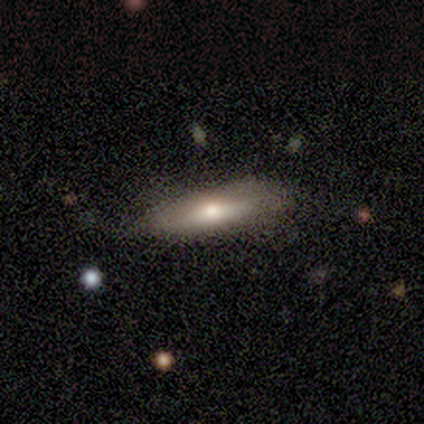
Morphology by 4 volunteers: smooth_or_featured: smooth (p=0.50) [tied with: featured or disk p=0.50]
how_rounded: in between (p=0.50) [tied with: cigar-shaped p=0.50]
merging: minor disturbance (p=0.50) [alt: none p=0.25]